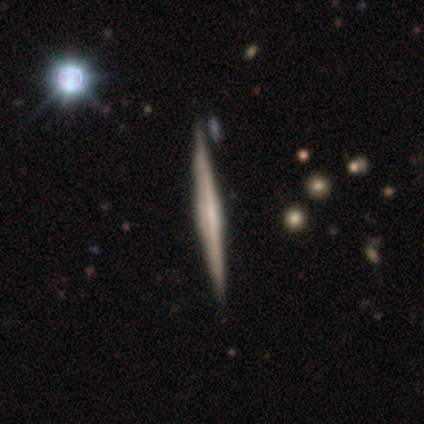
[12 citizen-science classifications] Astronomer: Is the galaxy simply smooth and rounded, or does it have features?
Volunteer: featured or disk — 75%.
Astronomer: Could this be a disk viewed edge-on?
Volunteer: yes — 89%.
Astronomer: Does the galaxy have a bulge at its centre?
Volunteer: boxy — 50%.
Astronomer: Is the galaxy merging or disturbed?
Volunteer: none — 92%.